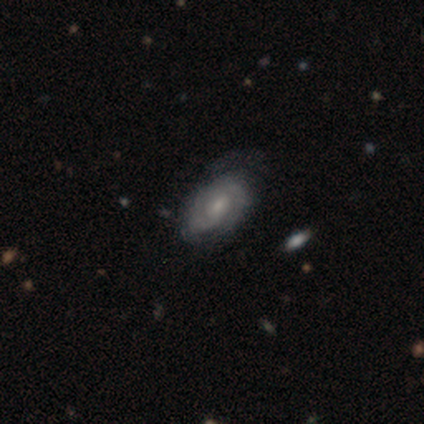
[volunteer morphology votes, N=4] Q: Smooth or featured?
A: featured or disk (100%)
Q: Edge-on disk?
A: no (100%)
Q: Bar?
A: weak (75%); runner-up: no (25%)
Q: Spiral arms?
A: yes (100%)
Q: Spiral winding?
A: tight (50%); tied with: medium (50%)
Q: Spiral arm count?
A: 2 (100%)
Q: Bulge size?
A: small (100%)
Q: Merging?
A: none (75%); runner-up: minor disturbance (25%)